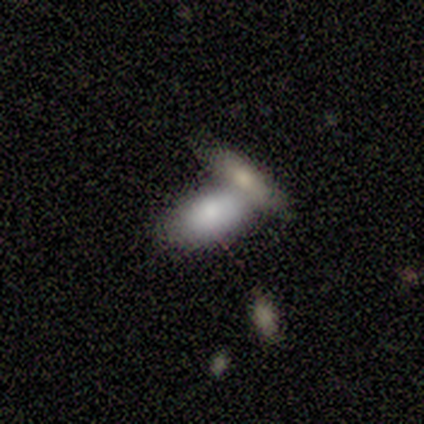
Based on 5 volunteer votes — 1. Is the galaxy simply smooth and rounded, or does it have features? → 80% smooth, 20% star or artifact, 0% featured or disk.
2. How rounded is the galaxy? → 100% in between, 0% round, 0% cigar-shaped.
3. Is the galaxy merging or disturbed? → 50% merger, 25% none, 25% minor disturbance, 0% major disturbance.